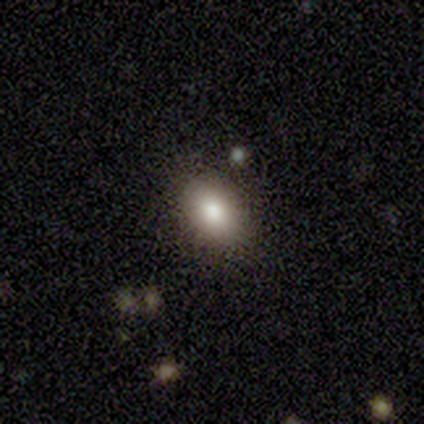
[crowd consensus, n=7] smooth-or-featured: smooth: 86% | star or artifact: 14% | featured or disk: 0%
  how-rounded: in between: 100% | round: 0% | cigar-shaped: 0%
  merging: none: 67% | minor disturbance: 17% | merger: 17% | major disturbance: 0%